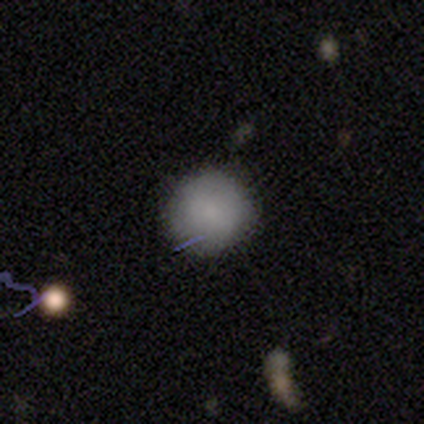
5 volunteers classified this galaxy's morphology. Smooth or featured? smooth (100%)
How rounded? round (100%)
Merging? none (100%)